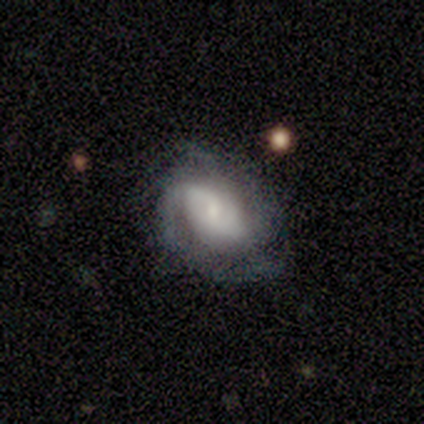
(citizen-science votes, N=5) A featured or disk galaxy (80%) with no bar (50%), medium (67%) spiral arms (75%) and a large central bulge (50%, tied with moderate). Merging: none (60%).